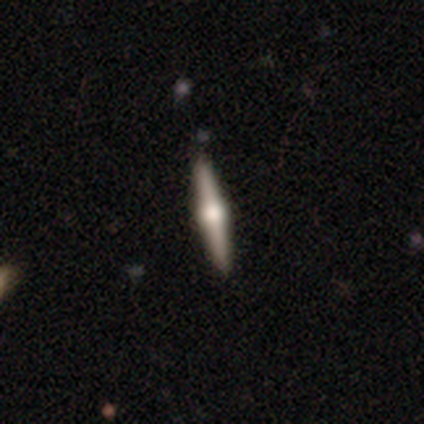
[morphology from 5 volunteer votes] smooth_or_featured: featured or disk (p=1.00)
disk_edge_on: yes (p=1.00)
edge_on_bulge: rounded (p=0.80) [alt: boxy p=0.20]
merging: none (p=1.00)